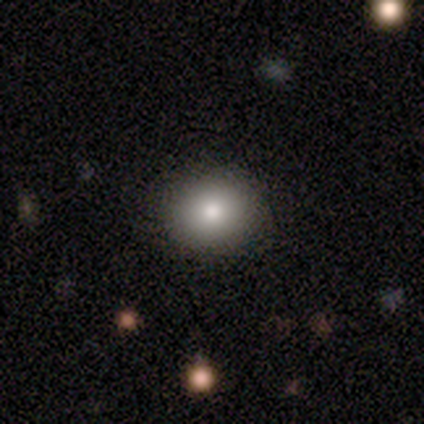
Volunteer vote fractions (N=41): Overall: smooth (85%). How rounded: round (66%; in between 34%). Merging: none (79%).